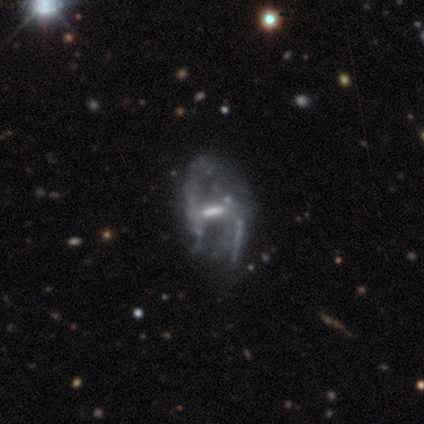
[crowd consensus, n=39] A featured or disk galaxy (85%) with a strong bar (50%), no spiral arms (53%) and a moderate central bulge (44%, tied with none).

Vote fractions:
- Smooth or featured? featured or disk: 85% / star or artifact: 15% / smooth: 0%
- Edge-on disk? no: 97% / yes: 3%
- Bar? strong: 50% / weak: 38% / no: 12%
- Spiral arms? no: 53% / yes: 47%
- Bulge size? moderate: 44% (tied) / none: 44% (tied) / small: 12% / dominant: 0% / large: 0%
- Merging? major disturbance: 30% / none: 18% / minor disturbance: 6% / merger: 6%